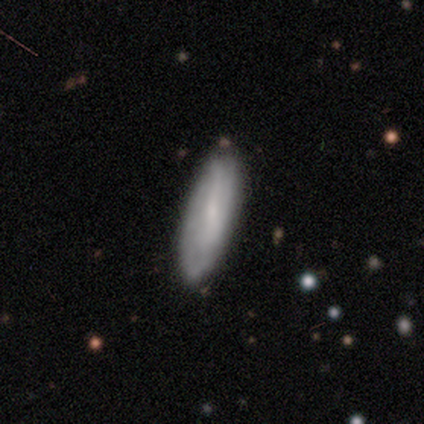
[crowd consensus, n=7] This is possibly a smooth galaxy (57%). How rounded: possibly in between (50%, tied with cigar-shaped). Merging: clearly none (100%).